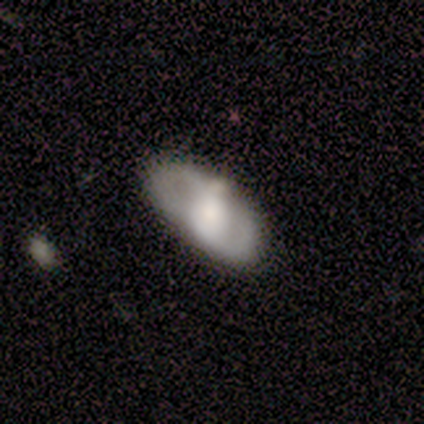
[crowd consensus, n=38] Overall: featured or disk (71%). Edge-on disk: no (81%). Bar: no (82%). Spiral arms: yes (68%; no 32%). Spiral arm count: 2 (73%). Spiral winding: medium (53%; loose 27%). Bulge size: large (50%; moderate 41%). Merging: none (58%).